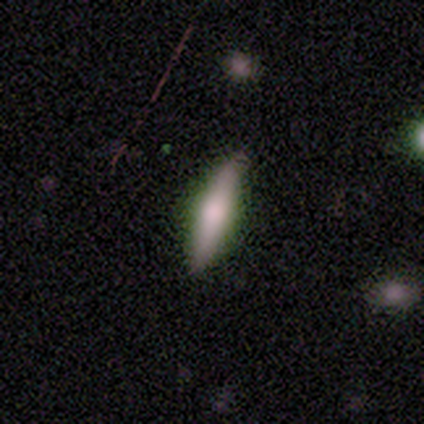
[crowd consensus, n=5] smooth-or-featured: smooth: 80% | featured or disk: 20% | star or artifact: 0%
  how-rounded: cigar-shaped: 75% | in between: 25% | round: 0%
  merging: none: 100% | minor disturbance: 0% | major disturbance: 0% | merger: 0%